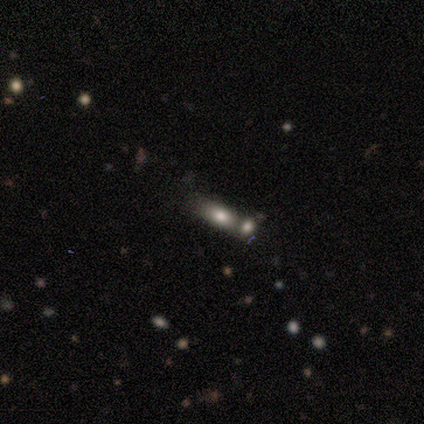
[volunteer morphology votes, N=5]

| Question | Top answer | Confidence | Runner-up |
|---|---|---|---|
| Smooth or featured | smooth | 80% | star or artifact (20%) |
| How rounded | in between | 100% | — |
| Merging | none | 50% | tied: merger (50%) |